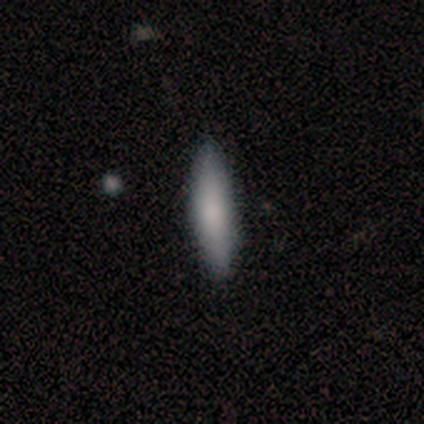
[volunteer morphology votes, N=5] A smooth galaxy with no disk features (100%) that is cigar-shaped (80%).

Vote fractions:
- Smooth or featured? smooth: 100% / featured or disk: 0% / star or artifact: 0%
- How rounded? cigar-shaped: 80% / in between: 20% / round: 0%
- Merging? none: 80% / minor disturbance: 20% / major disturbance: 0% / merger: 0%